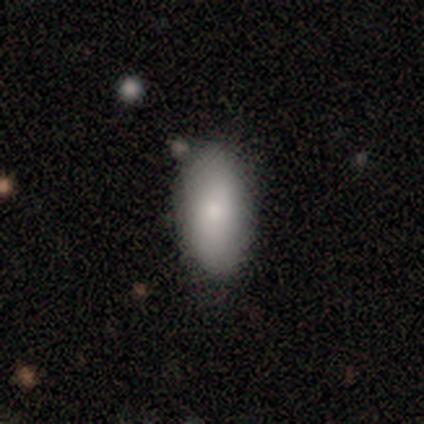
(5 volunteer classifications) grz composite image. It shows a smooth galaxy with no disk features (100%) that is in between round and cigar-shaped (80%). Merging: minor disturbance (60%).